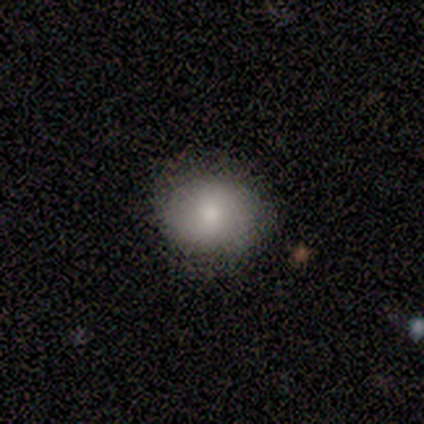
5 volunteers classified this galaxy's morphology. Smooth or featured? smooth (80%)
How rounded? round (50%, tied with in between)
Merging? none (100%)